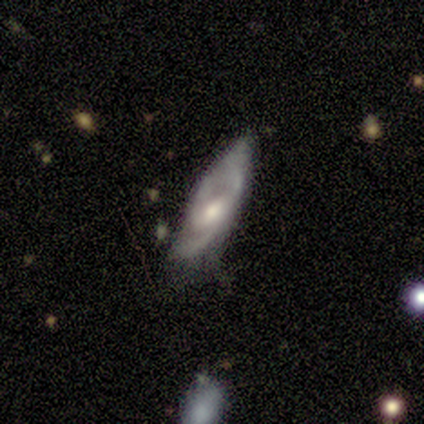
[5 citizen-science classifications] Smooth or featured? 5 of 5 (100%) said featured or disk. Edge-on disk? 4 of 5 (80%) said no. Bar? 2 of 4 (50%) said no. Spiral arms? 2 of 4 (50%, tied with no) said yes. Spiral winding? 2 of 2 (100%) said medium. Spiral arm count? 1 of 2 (50%, tied with can't tell) said 3. Bulge size? 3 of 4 (75%) said moderate. Merging? 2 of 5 (40%, tied with major disturbance) said none.